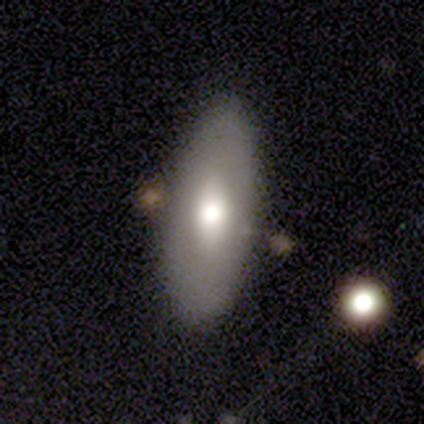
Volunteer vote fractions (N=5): Smooth or featured: smooth — 60% (featured or disk — 40%)
How rounded: in between — 100%
Merging: none — 80% (merger — 20%)